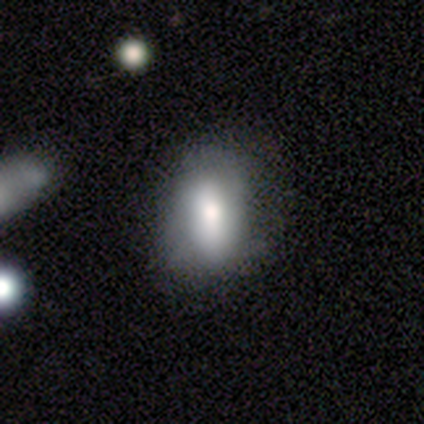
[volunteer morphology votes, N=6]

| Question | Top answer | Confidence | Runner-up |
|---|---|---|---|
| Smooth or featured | smooth | 83% | featured or disk (17%) |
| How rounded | in between | 80% | round (20%) |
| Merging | minor disturbance | 50% | none (33%) |